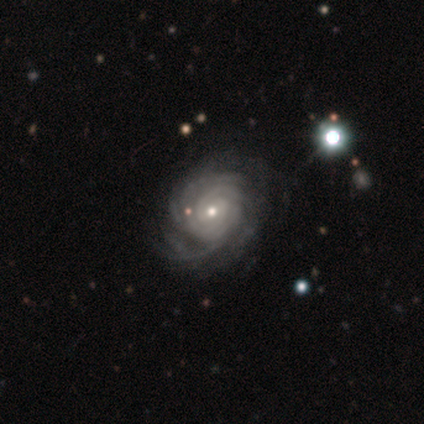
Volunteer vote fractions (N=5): Smooth or featured? featured or disk (100%)
Edge-on disk? no (100%)
Bar? no (60%)
Spiral arms? yes (100%)
Spiral winding? tight (60%)
Spiral arm count? can't tell (60%)
Bulge size? small (80%)
Merging? minor disturbance (60%)